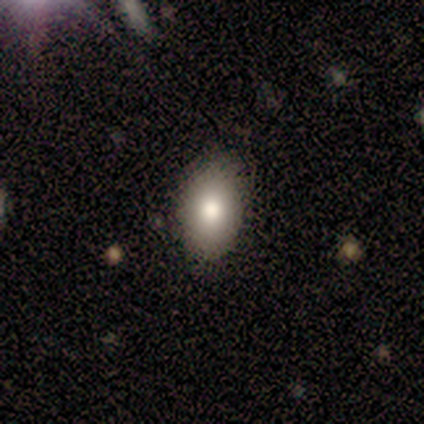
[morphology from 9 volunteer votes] A smooth galaxy with no disk features (89%) that is in between round and cigar-shaped (88%).

Vote fractions:
- Smooth or featured? smooth: 89% / featured or disk: 11% / star or artifact: 0%
- How rounded? in between: 88% / round: 12% / cigar-shaped: 0%
- Merging? none: 78% / minor disturbance: 22% / major disturbance: 0% / merger: 0%